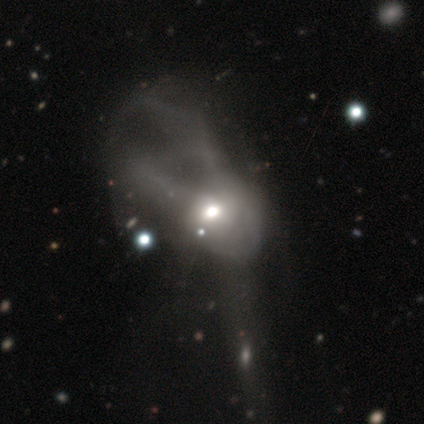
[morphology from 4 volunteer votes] This is possibly a featured or disk galaxy (50%). It is possibly viewed edge-on (50%, tied with no). Edge-on bulge: clearly none (100%). Merging: clearly major disturbance (100%).